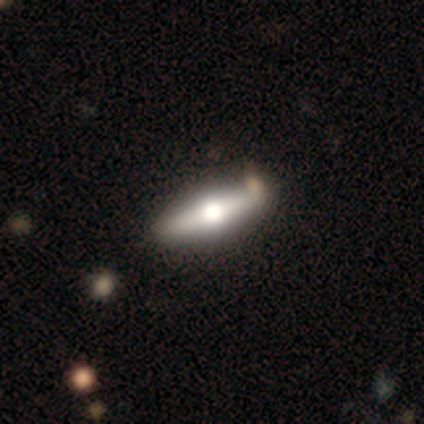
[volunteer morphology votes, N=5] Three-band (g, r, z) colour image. It shows a featured or disk galaxy (60%) viewed edge-on (67%) with a rounded central bulge (100%). Merging: none (100%).